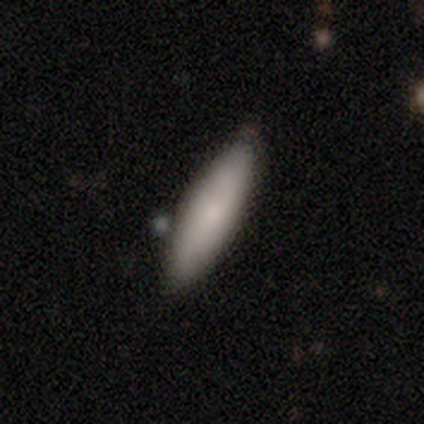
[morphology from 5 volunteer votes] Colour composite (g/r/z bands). It shows a smooth galaxy with no disk features (100%) that is in between round and cigar-shaped (40%, tied with cigar-shaped). Merging: none (80%).